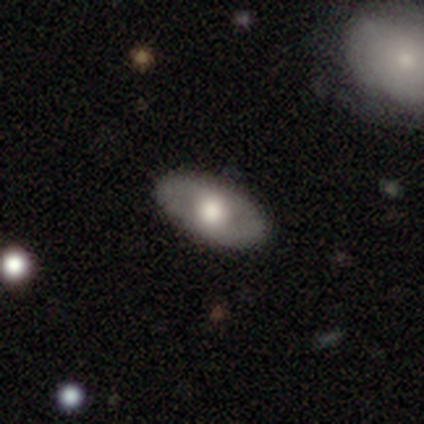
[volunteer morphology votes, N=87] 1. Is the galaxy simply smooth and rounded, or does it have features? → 45% smooth (tied), 45% featured or disk (tied), 10% star or artifact.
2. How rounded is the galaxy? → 85% in between, 13% round, 3% cigar-shaped.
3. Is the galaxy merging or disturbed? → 92% none, 6% minor disturbance, 1% major disturbance, 0% merger.